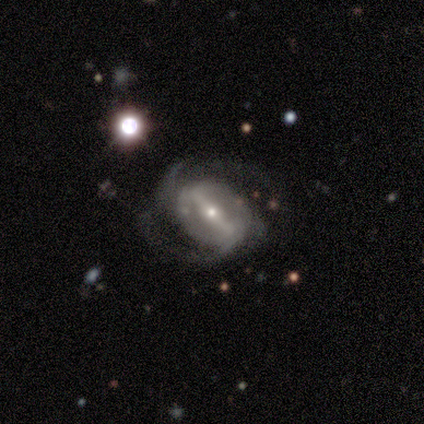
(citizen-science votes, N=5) Smooth or featured: featured or disk — 100%
Edge-on disk: no — 100%
Bar: strong — 100%
Spiral arms: yes — 100%
Spiral winding: medium — 80% (loose — 20%)
Spiral arm count: 2 — 100%
Bulge size: small — 60% (large — 20%)
Merging: none — 100%